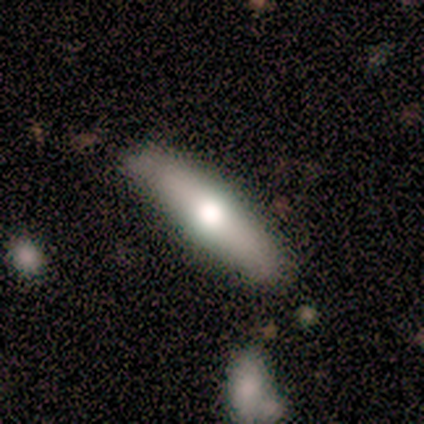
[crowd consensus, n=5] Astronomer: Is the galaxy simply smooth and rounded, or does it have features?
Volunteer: featured or disk — 80%.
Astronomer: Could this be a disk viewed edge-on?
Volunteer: yes — 100%.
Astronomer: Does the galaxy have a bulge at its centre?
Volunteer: rounded — 100%.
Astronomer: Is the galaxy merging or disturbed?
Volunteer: none — 100%.